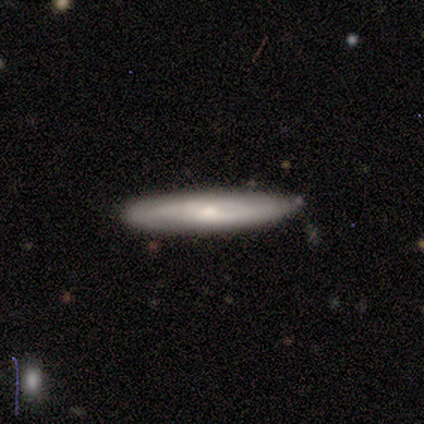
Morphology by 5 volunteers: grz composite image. It shows a smooth galaxy with no disk features (80%) that is cigar-shaped (75%). Merging: none (75%).